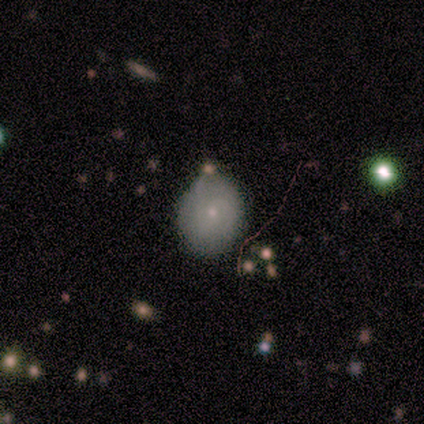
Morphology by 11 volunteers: type=smooth (64%); roundness=round (71%); merging=none (82%).